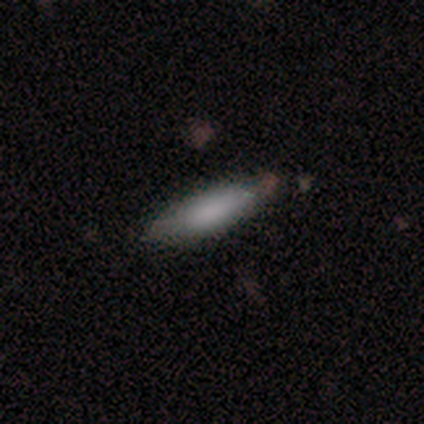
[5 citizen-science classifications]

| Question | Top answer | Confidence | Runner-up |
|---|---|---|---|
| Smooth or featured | smooth | 100% | — |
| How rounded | cigar-shaped | 80% | in between (20%) |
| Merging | none | 80% | major disturbance (20%) |